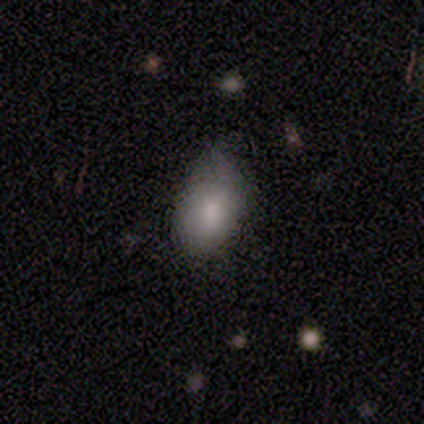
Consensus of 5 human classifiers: This appears to be a smooth galaxy with no disk features (80%) that is in between round and cigar-shaped (75%). Merging: minor disturbance (100%).